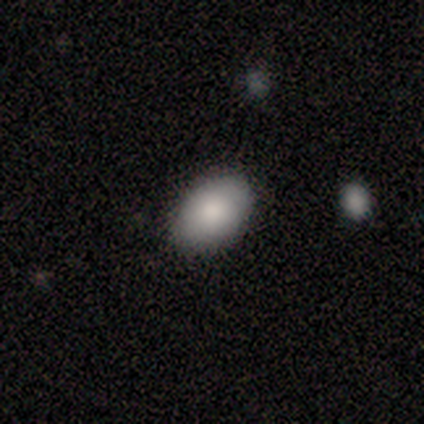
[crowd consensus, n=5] Smooth or featured? 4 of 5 (80%) said smooth. How rounded? 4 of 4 (100%) said in between. Merging? 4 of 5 (80%) said none.